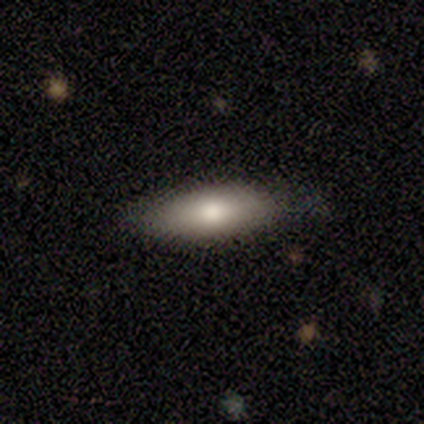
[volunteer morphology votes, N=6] smooth_or_featured: smooth (p=0.67) [alt: featured or disk p=0.33]
how_rounded: in between (p=0.50) [alt: round p=0.25]
merging: none (p=0.50) [alt: major disturbance p=0.33]